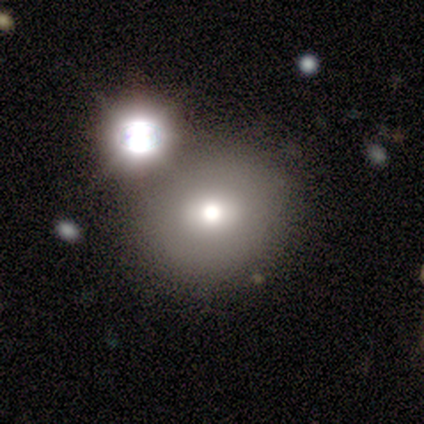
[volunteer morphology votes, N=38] This appears to be a smooth galaxy with no disk features (71%) that is round (78%). Merging: none (50%).